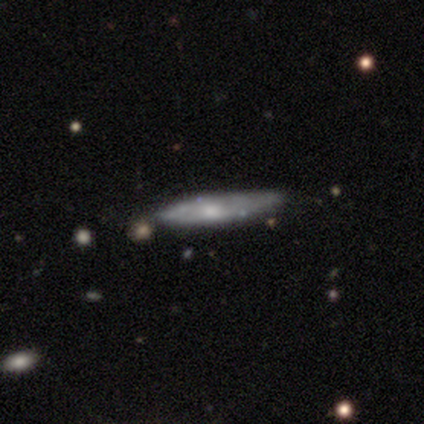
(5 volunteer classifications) Volunteers were most divided on "edge-on bulge" (2-way tie): none: 50%, rounded: 50%, boxy: 0%. More confident: edge-on disk — yes (100%); smooth or featured — featured or disk (80%); merging — none (80%).